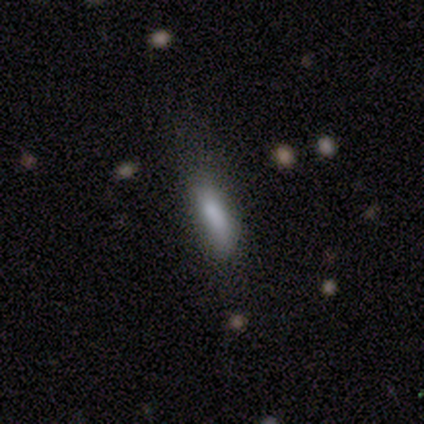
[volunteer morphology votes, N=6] smooth_or_featured: smooth (p=1.00)
how_rounded: in between (p=0.67) [alt: cigar-shaped p=0.33]
merging: none (p=0.50) [alt: minor disturbance p=0.33]